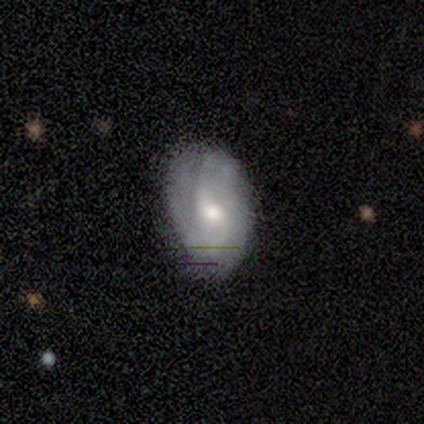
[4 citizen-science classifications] Volunteers were most divided on "spiral winding" (2-way tie): tight: 50%, loose: 50%, medium: 0%. More confident: smooth or featured — featured or disk (100%); edge-on disk — no (100%); spiral arms — yes (100%); bar — no (75%); bulge size — moderate (75%); spiral arm count — 2 (50%); merging — none (50%).